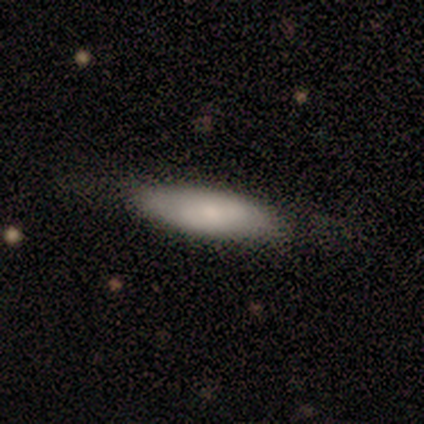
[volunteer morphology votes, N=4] smooth 100%, featured or disk 0%, star or artifact 0%. Down the decision tree: how rounded — cigar-shaped (75%); merging — none (100%).